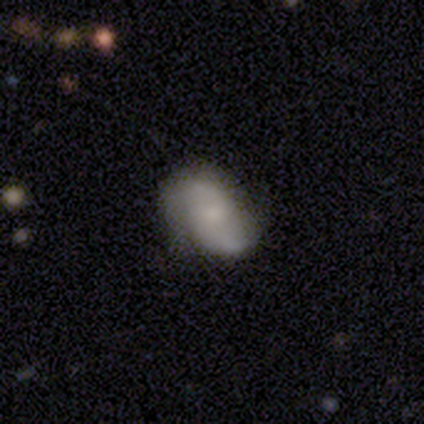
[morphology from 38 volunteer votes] Smooth or featured: featured or disk — 53% (smooth — 37%)
Edge-on disk: no — 100%
Bar: no — 70% (weak — 30%)
Spiral arms: yes — 75% (no — 25%)
Spiral winding: medium — 47% (tied with loose — 47%)
Spiral arm count: 2 — 93% (can't tell — 7%)
Bulge size: small — 45% (none — 30%)
Merging: none — 65% (minor disturbance — 24%)